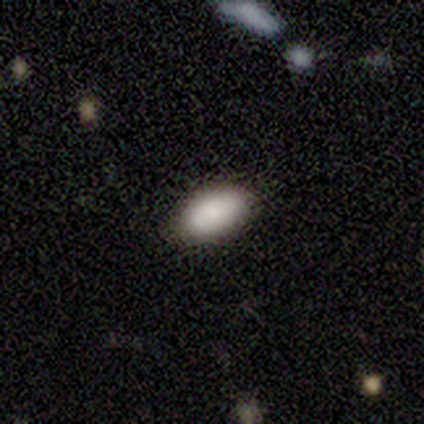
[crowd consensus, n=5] smooth 100%, featured or disk 0%, star or artifact 0%. Down the decision tree: how rounded — in between (100%); merging — none (100%).